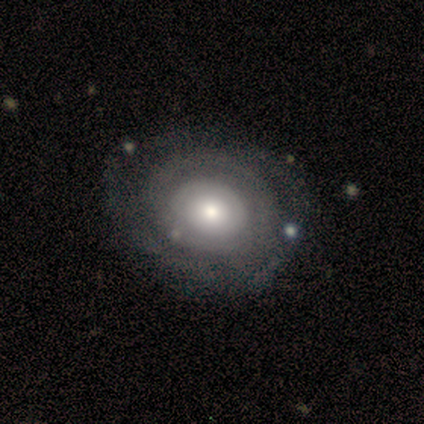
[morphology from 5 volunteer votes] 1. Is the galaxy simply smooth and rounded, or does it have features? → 80% featured or disk, 20% smooth, 0% star or artifact.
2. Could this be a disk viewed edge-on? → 100% no, 0% yes.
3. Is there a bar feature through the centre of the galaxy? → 100% no, 0% strong, 0% weak.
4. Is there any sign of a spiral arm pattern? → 100% yes, 0% no.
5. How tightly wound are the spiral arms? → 100% tight, 0% medium, 0% loose.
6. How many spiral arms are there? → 100% can't tell, 0% 1, 0% 2, 0% 3, 0% 4, 0% more than 4.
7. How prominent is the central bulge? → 75% small, 25% moderate, 0% dominant, 0% large, 0% none.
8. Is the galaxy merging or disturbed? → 60% none, 40% minor disturbance, 0% major disturbance, 0% merger.